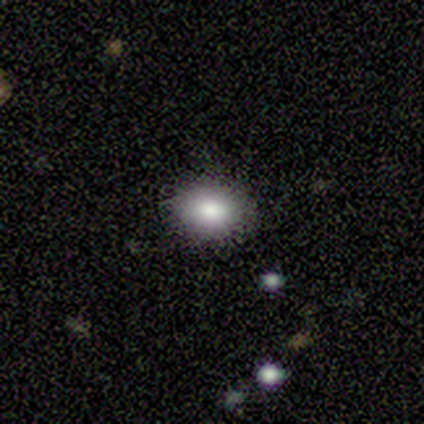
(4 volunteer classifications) Volunteers were most divided on "how rounded": in between: 67%, round: 33%, cigar-shaped: 0%. More confident: merging — none (100%); smooth or featured — smooth (75%).